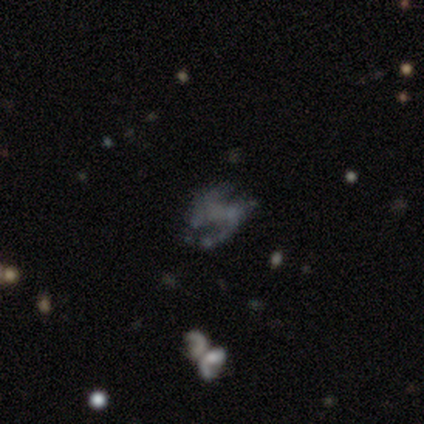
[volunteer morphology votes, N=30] A featured or disk galaxy (77%) with no bar (57%), 2 (88%) loose (56%) spiral arms (70%) and no central bulge (87%). Merging: none (71%).